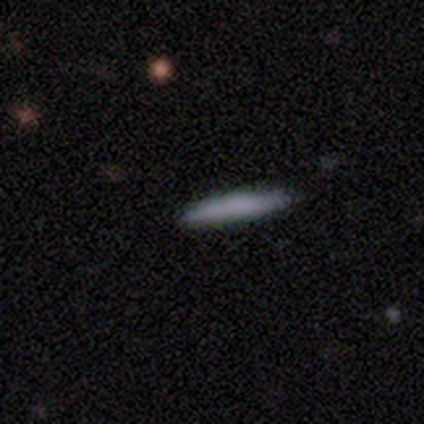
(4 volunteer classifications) This appears to be a smooth galaxy with no disk features (50%, tied with featured or disk) that is cigar-shaped (100%). Merging: none (100%).